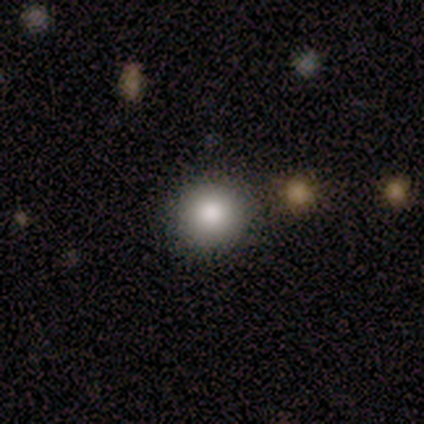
Volunteers were most divided on "smooth or featured": smooth: 75%, star or artifact: 25%, featured or disk: 0%. More confident: how rounded — round (100%); merging — none (100%).